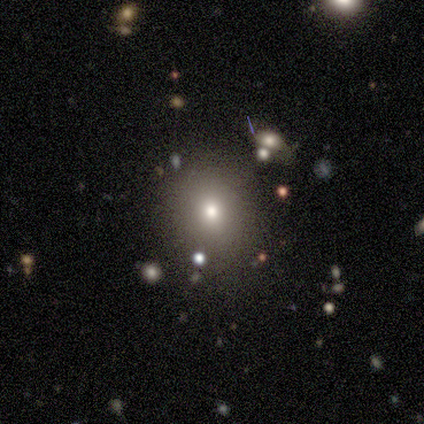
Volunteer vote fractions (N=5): Smooth or featured? 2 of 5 (40%, tied with featured or disk) said smooth. How rounded? 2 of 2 (100%) said round. Merging? 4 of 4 (100%) said none.